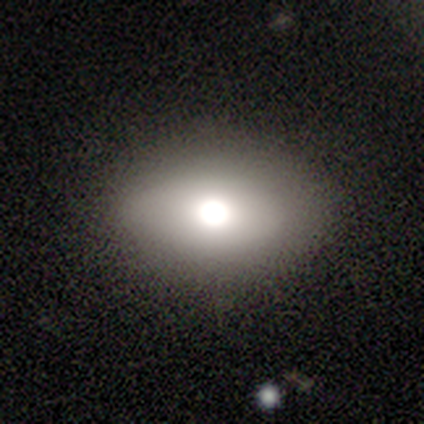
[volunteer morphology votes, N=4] This appears to be a smooth galaxy with no disk features (50%, tied with star or artifact) that is in between round and cigar-shaped (100%). Merging: none (100%).